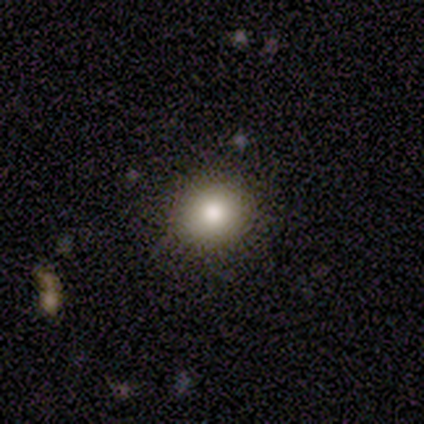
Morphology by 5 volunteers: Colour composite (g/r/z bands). It shows a smooth galaxy with no disk features (100%) that is round (100%). Merging: none (100%).